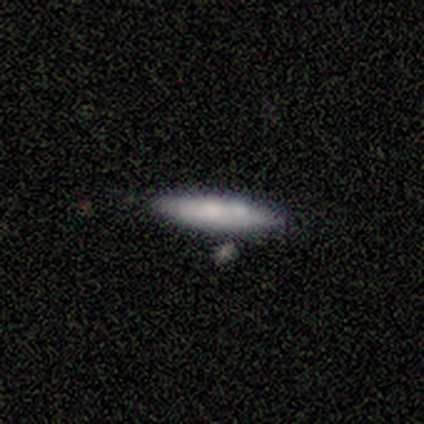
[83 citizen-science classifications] Volunteers were most divided on "smooth or featured": smooth: 64%, featured or disk: 29%, star or artifact: 7%. More confident: how rounded — cigar-shaped (89%); merging — none (74%).